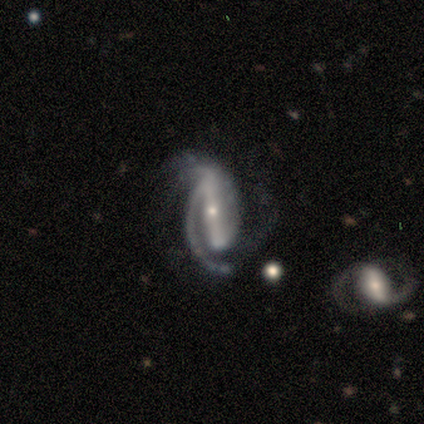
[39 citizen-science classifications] Volunteers were most divided on "merging": none: 39%, minor disturbance: 31%, major disturbance: 25%, merger: 6%. More confident: spiral arms — yes (97%); edge-on disk — no (91%); smooth or featured — featured or disk (90%); bulge size — small (88%); bar — strong (81%); spiral winding — tight (52%); spiral arm count — 2 (52%).